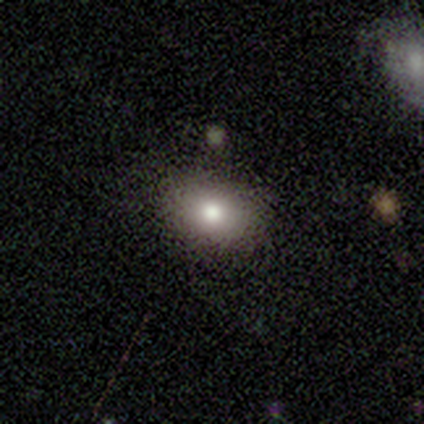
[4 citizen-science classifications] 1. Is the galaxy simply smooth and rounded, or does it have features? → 100% smooth, 0% featured or disk, 0% star or artifact.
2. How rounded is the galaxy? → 75% in between, 25% round, 0% cigar-shaped.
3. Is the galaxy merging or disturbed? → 75% none, 25% merger, 0% minor disturbance, 0% major disturbance.